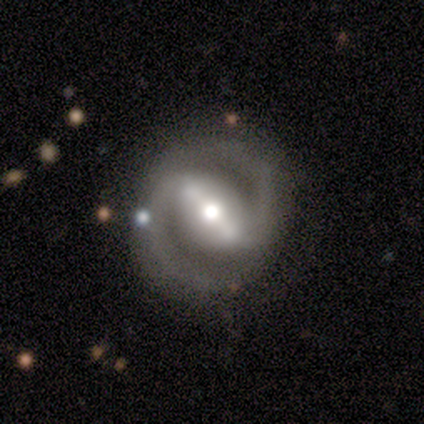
Smooth or featured: featured or disk — 100%
Edge-on disk: no — 100%
Bar: strong — 100%
Spiral arms: yes — 100%
Spiral winding: tight — 100%
Spiral arm count: 2 — 100%
Bulge size: moderate — 100%
Merging: none — 100%